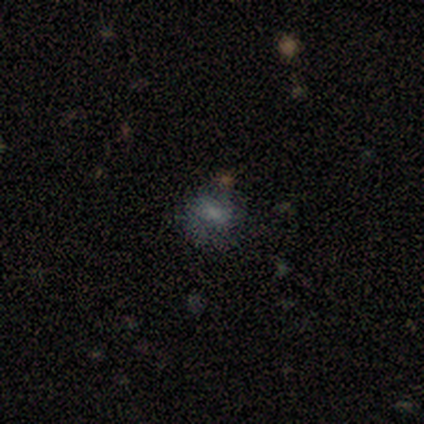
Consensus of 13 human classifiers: smooth_or_featured: smooth (p=0.77) [alt: featured or disk p=0.15]
how_rounded: in between (p=0.70) [alt: round p=0.30]
merging: none (p=0.58) [alt: minor disturbance p=0.25]